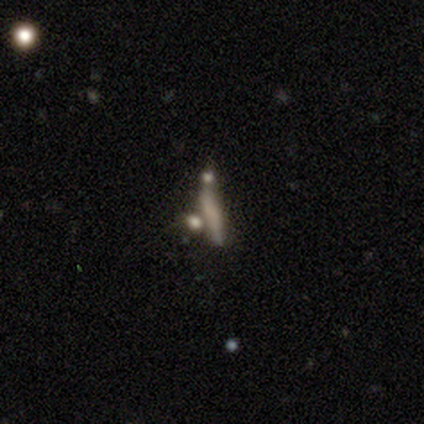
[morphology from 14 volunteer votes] Smooth or featured? smooth (50%)
How rounded? cigar-shaped (100%)
Merging? merger (46%)